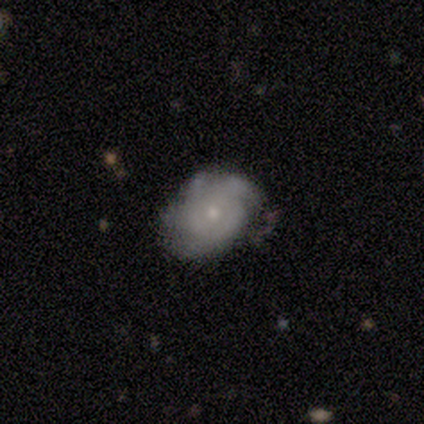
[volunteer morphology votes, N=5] Q: Smooth or featured?
A: featured or disk (60%); runner-up: smooth (20%)
Q: Edge-on disk?
A: no (67%); runner-up: yes (33%)
Q: Bar?
A: weak (50%); tied with: no (50%)
Q: Spiral arms?
A: yes (100%)
Q: Spiral winding?
A: tight (100%)
Q: Spiral arm count?
A: 4 (50%); tied with: can't tell (50%)
Q: Bulge size?
A: small (100%)
Q: Merging?
A: none (75%); runner-up: major disturbance (25%)